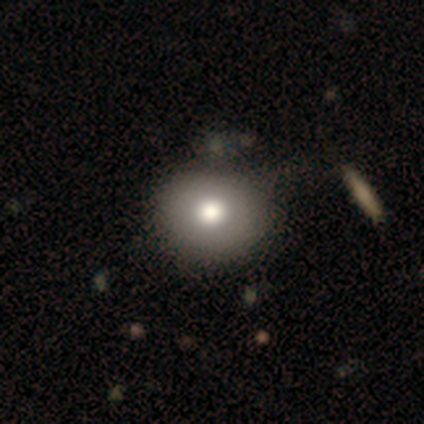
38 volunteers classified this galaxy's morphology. smooth-or-featured: smooth: 84% | featured or disk: 8% | star or artifact: 8%
  how-rounded: round: 75% | in between: 25% | cigar-shaped: 0%
  merging: none: 46% | minor disturbance: 23% | merger: 9% | major disturbance: 0%